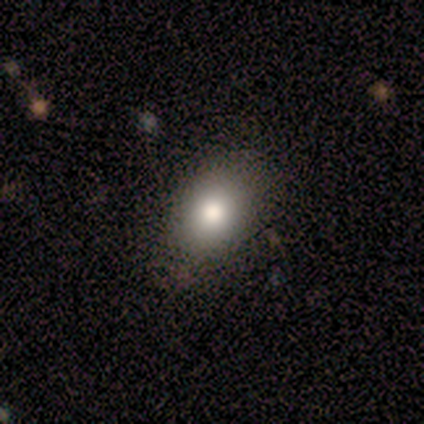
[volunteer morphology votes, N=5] Smooth or featured? smooth (80%)
How rounded? in between (75%)
Merging? none (75%)